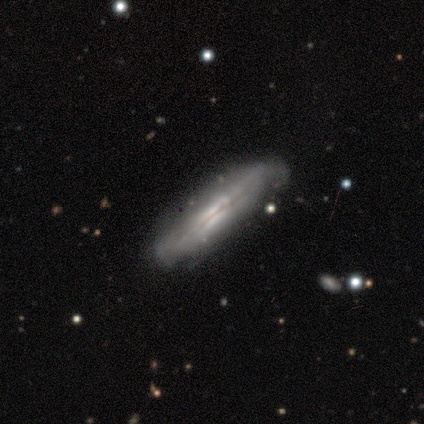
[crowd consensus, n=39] Q: Smooth or featured?
A: featured or disk (64%); runner-up: smooth (28%)
Q: Edge-on disk?
A: yes (80%); runner-up: no (20%)
Q: Edge-on bulge?
A: boxy (45%); tied with: none (45%)
Q: Merging?
A: none (61%); runner-up: minor disturbance (33%)